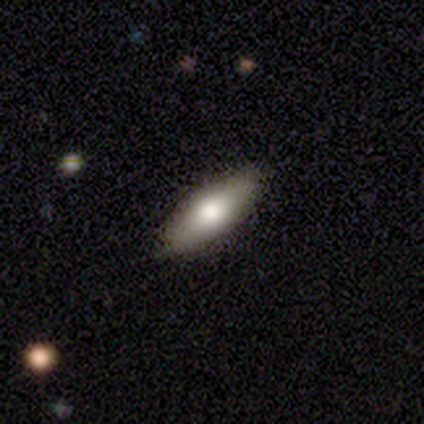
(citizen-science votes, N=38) Smooth or featured?
  - smooth: 63% *
  - featured or disk: 32%
  - star or artifact: 5%
How rounded?
  - in between: 71% *
  - cigar-shaped: 29%
  - round: 0%
Merging?
  - none: 86% *
  - minor disturbance: 14%
  - major disturbance: 0%
  - merger: 0%